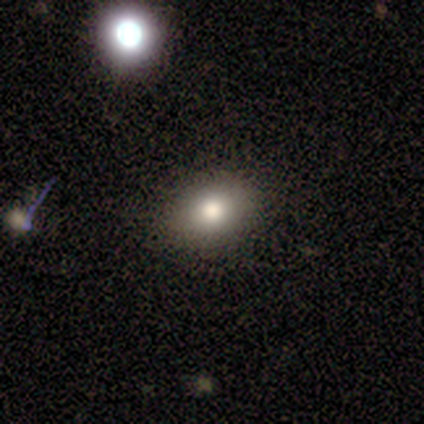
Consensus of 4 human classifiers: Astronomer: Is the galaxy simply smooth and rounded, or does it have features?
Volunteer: smooth — 100%.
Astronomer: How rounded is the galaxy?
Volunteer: in between — 75%.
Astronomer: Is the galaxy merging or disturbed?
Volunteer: none — 100%.